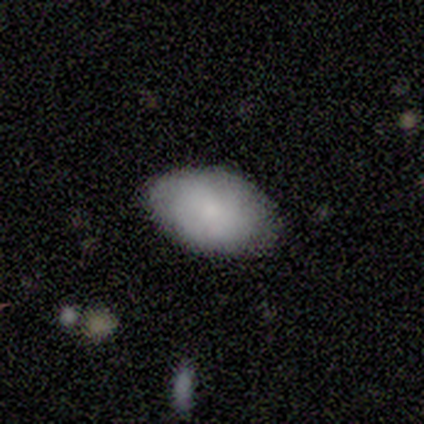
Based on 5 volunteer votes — Morphology: type=smooth (100%); roundness=in between (100%); merging=none (80%).